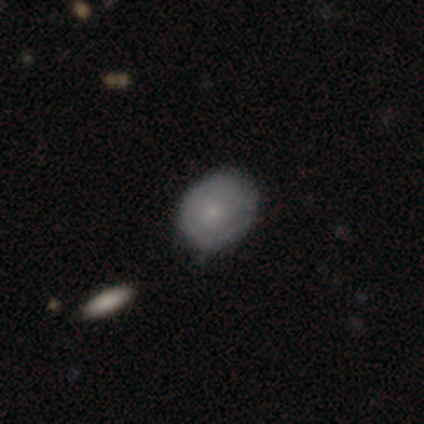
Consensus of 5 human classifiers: smooth_or_featured: smooth (p=0.80) [alt: star or artifact p=0.20]
how_rounded: in between (p=0.75) [alt: round p=0.25]
merging: none (p=0.75) [alt: minor disturbance p=0.25]